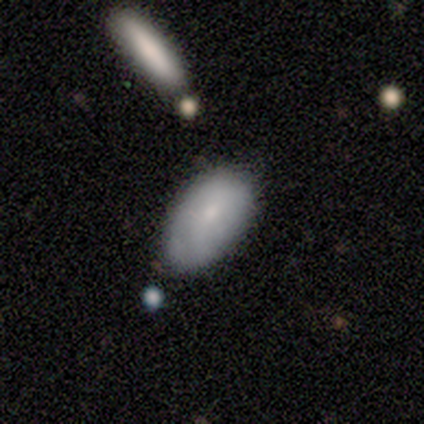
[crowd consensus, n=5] Smooth or featured? 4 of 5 (80%) said smooth. How rounded? 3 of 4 (75%) said in between. Merging? 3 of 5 (60%) said none.